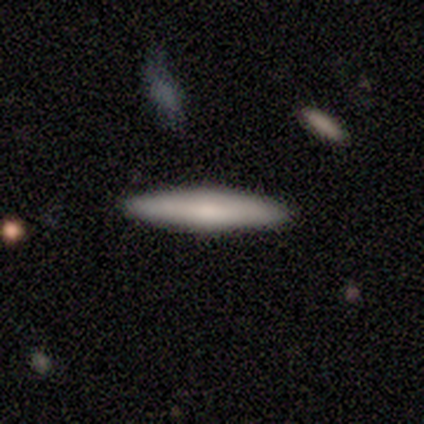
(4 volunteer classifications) smooth-or-featured: smooth: 50% (tied) | featured or disk: 50% (tied) | star or artifact: 0%
  how-rounded: cigar-shaped: 100% | round: 0% | in between: 0%
  merging: none: 100% | minor disturbance: 0% | major disturbance: 0% | merger: 0%